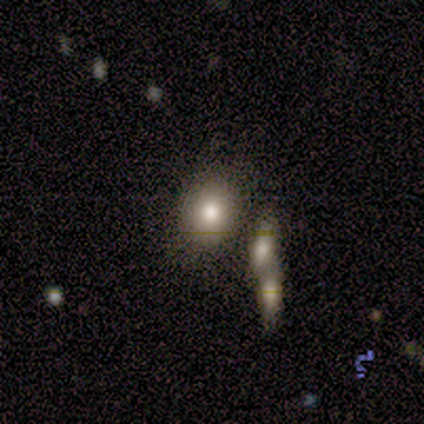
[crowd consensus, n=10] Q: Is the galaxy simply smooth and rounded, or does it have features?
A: smooth — 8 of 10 (80%).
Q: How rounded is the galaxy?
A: in between — 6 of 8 (75%).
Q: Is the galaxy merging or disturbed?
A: none — 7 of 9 (78%).